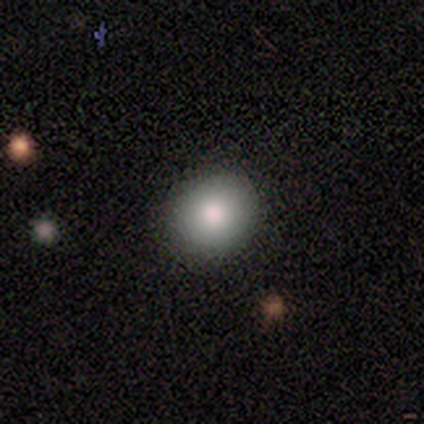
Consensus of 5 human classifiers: Volunteers were most divided on "smooth or featured": smooth: 80%, featured or disk: 20%, star or artifact: 0%. More confident: how rounded — round (100%); merging — none (80%).